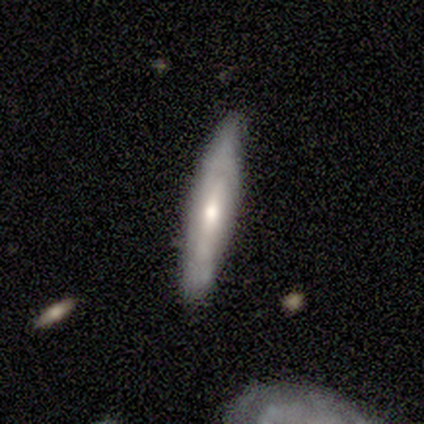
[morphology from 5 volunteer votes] Volunteers were most divided on "smooth or featured": featured or disk: 60%, smooth: 40%, star or artifact: 0%. More confident: edge-on bulge — rounded (100%); edge-on disk — yes (67%); merging — none (60%).